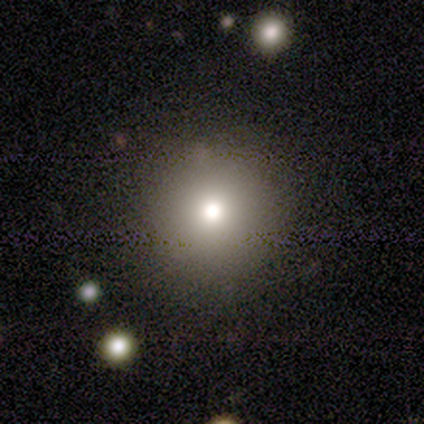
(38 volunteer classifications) Smooth or featured?
  - smooth: 92% *
  - star or artifact: 5%
  - featured or disk: 3%
How rounded?
  - round: 91% *
  - in between: 9%
  - cigar-shaped: 0%
Merging?
  - none: 86% *
  - minor disturbance: 6%
  - major disturbance: 6%
  - merger: 3%